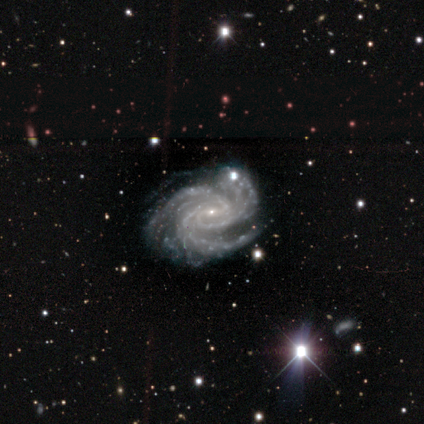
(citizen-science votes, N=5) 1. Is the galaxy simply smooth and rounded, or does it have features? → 100% featured or disk, 0% smooth, 0% star or artifact.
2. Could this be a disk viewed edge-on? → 80% no, 20% yes.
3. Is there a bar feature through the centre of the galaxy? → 50% weak (tied), 50% no (tied), 0% strong.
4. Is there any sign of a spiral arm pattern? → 100% yes, 0% no.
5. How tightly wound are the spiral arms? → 75% medium, 25% tight, 0% loose.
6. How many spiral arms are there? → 75% 3, 25% more than 4, 0% 1, 0% 2, 0% 4, 0% can't tell.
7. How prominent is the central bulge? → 75% small, 25% none, 0% dominant, 0% large, 0% moderate.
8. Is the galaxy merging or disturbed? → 80% none, 20% minor disturbance, 0% major disturbance, 0% merger.